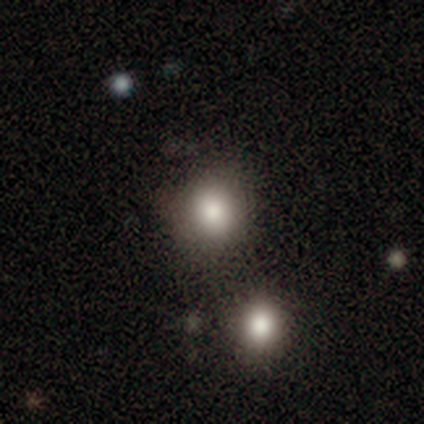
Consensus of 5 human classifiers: Smooth or featured: smooth — 80% (star or artifact — 20%)
How rounded: round — 75% (in between — 25%)
Merging: none — 100%